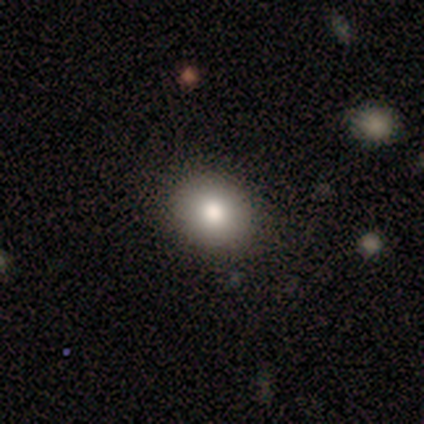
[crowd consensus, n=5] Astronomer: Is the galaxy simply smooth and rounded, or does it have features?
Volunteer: smooth — 60% (runner-up: featured or disk, 40%).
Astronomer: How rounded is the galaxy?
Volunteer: in between — 67%.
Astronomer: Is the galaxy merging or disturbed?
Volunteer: none — 80%.